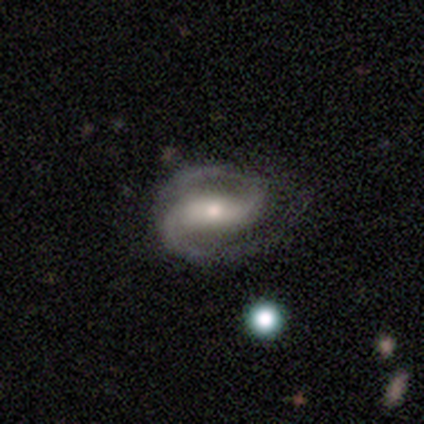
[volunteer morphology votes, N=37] A featured or disk galaxy (95%) with a weak bar (47%), 2 (100%) medium (59%) spiral arms (100%) and a small central bulge (74%).

Vote fractions:
- Smooth or featured? featured or disk: 95% / smooth: 3% / star or artifact: 3%
- Edge-on disk? no: 97% / yes: 3%
- Bar? weak: 47% / strong: 41% / no: 12%
- Spiral arms? yes: 100% / no: 0%
- Spiral winding? medium: 59% / loose: 24% / tight: 18%
- Spiral arm count? 2: 100% / 1: 0% / 3: 0% / 4: 0% / more than 4: 0% / can't tell: 0%
- Bulge size? small: 74% / moderate: 24% / large: 3% / dominant: 0% / none: 0%
- Merging? none: 72% / minor disturbance: 22% / major disturbance: 6% / merger: 0%